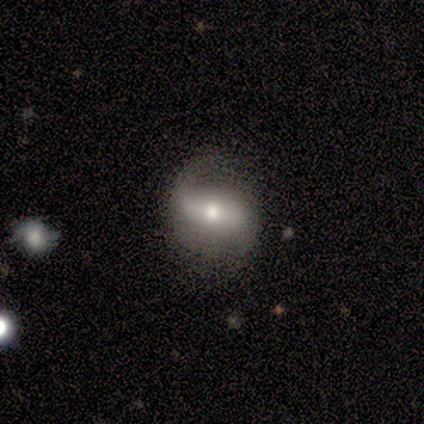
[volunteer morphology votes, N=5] This is clearly a featured or disk galaxy (80%). It is clearly not viewed edge-on (100%). Bar: possibly strong (50%, tied with weak). Spiral arm pattern: clearly yes (100%). Spiral arm count: likely 2 (75%). Spiral winding: likely loose (75%). Central bulge: possibly small (50%). Merging: likely minor disturbance (60%).